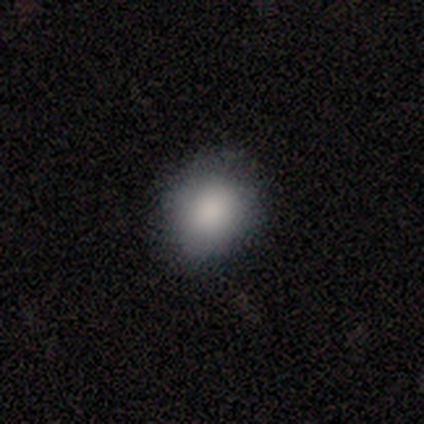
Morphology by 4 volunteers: A smooth galaxy with no disk features (100%) that is round (50%, tied with in between). Merging: none (100%).